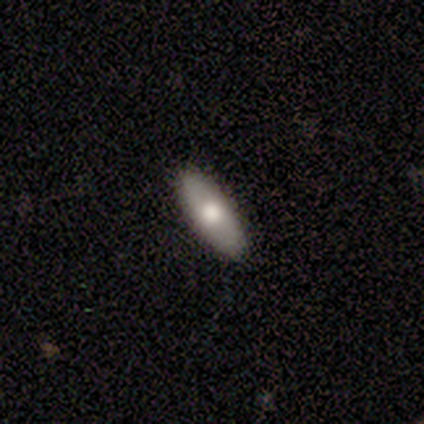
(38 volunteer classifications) Smooth or featured? 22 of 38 (58%) said smooth. How rounded? 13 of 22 (59%) said in between. Merging? 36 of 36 (100%) said none.